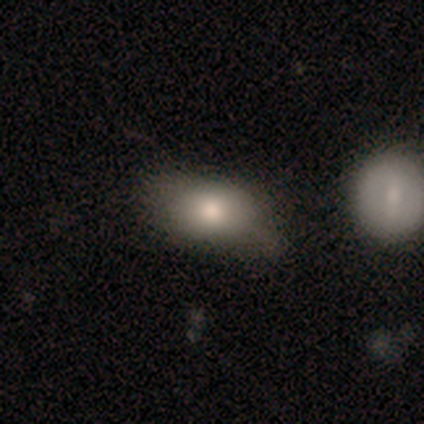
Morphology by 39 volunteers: smooth 82%, star or artifact 10%, featured or disk 8%. Down the decision tree: how rounded — in between (84%); merging — none (60%).